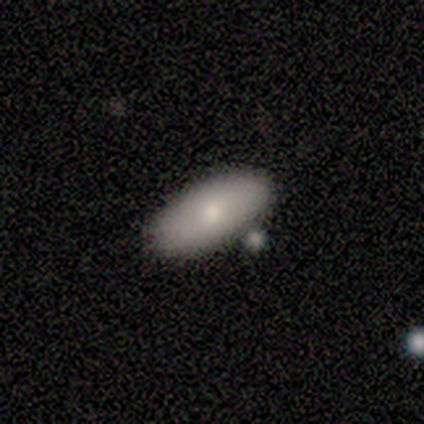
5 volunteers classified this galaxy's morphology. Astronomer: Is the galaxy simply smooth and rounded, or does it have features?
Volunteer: smooth — 80%.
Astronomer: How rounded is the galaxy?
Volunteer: in between — 75%.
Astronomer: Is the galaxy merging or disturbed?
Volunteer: none — 50%.